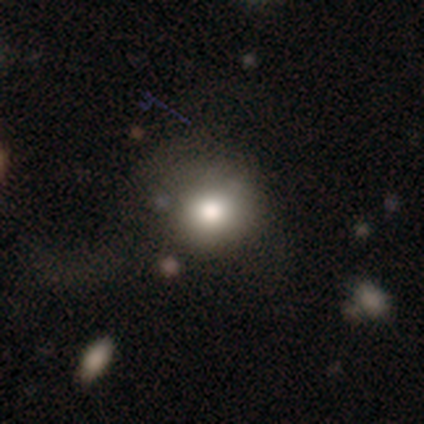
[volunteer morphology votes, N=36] smooth_or_featured: smooth (p=0.78) [alt: star or artifact p=0.14]
how_rounded: round (p=0.75) [alt: in between p=0.25]
merging: none (p=0.61) [alt: minor disturbance p=0.23]